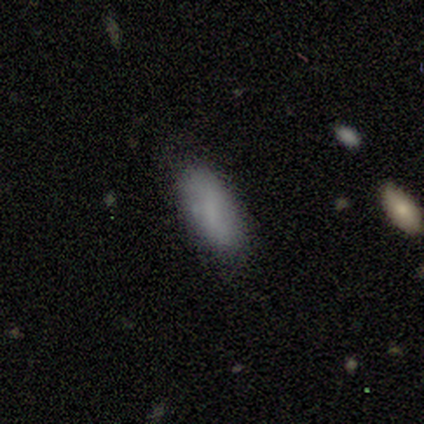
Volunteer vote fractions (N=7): This is possibly a smooth galaxy (57%). How rounded: clearly in between (100%). Merging: clearly none (100%).